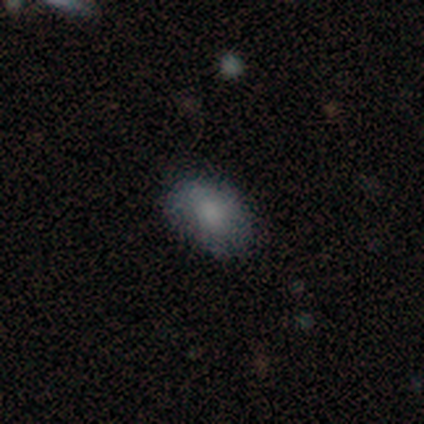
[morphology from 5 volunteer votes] Smooth or featured? 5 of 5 (100%) said smooth. How rounded? 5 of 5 (100%) said in between. Merging? 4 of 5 (80%) said none.